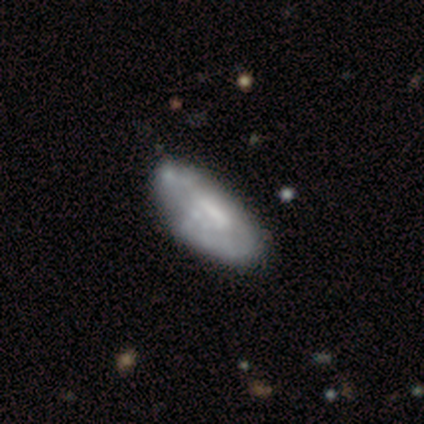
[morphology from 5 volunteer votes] type=smooth (40%, tied with featured or disk); roundness=in between (100%); merging=minor disturbance (50%).